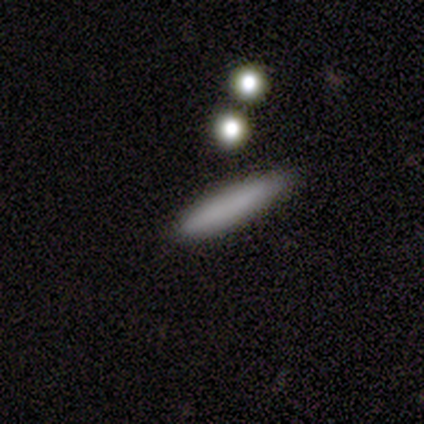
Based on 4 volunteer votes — Smooth or featured? 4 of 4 (100%) said smooth. How rounded? 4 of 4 (100%) said cigar-shaped. Merging? 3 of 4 (75%) said none.